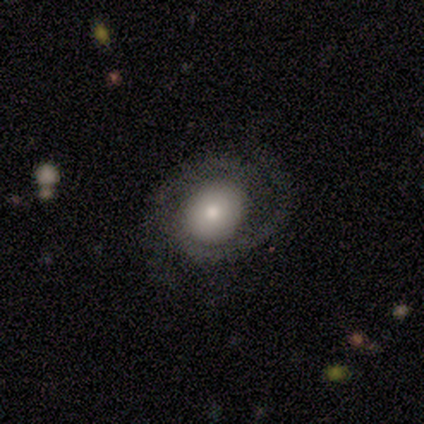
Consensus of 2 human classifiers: Overall: smooth (50%, tied with featured or disk). How rounded: in between (100%). Merging: none (50%, tied with major disturbance).